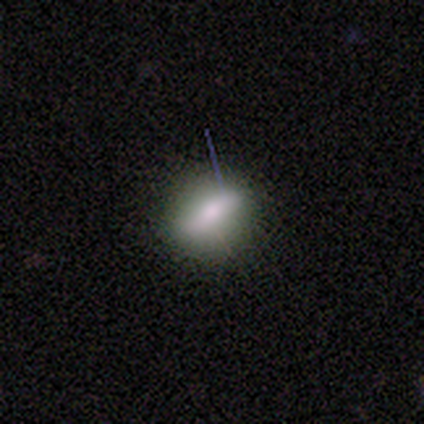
This appears to be a smooth galaxy with no disk features (80%) that is in between round and cigar-shaped (75%). Merging: none (100%).